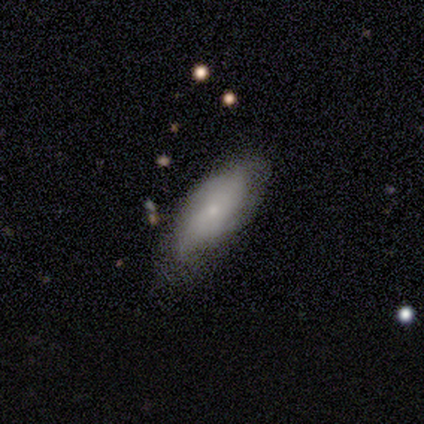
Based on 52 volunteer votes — A featured or disk galaxy (56%) with no bar (88%), tight (38%) spiral arms (52%) and a small central bulge (68%). Merging: none (62%).